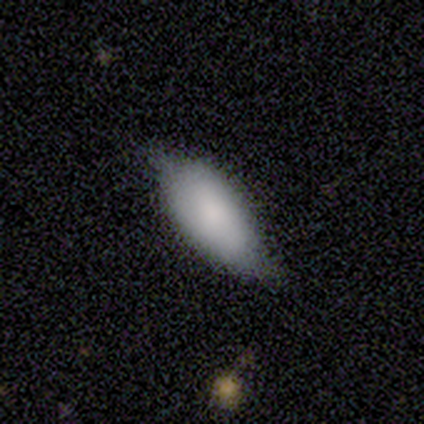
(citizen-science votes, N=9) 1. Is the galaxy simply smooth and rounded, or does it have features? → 78% smooth, 22% featured or disk, 0% star or artifact.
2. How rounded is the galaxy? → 100% in between, 0% round, 0% cigar-shaped.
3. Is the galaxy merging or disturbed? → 56% none, 44% minor disturbance, 0% major disturbance, 0% merger.